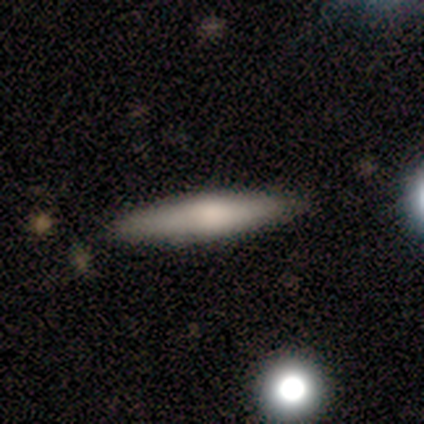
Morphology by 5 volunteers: Volunteers were most divided on "smooth or featured": smooth: 80%, featured or disk: 20%, star or artifact: 0%. More confident: how rounded — cigar-shaped (100%); merging — none (80%).